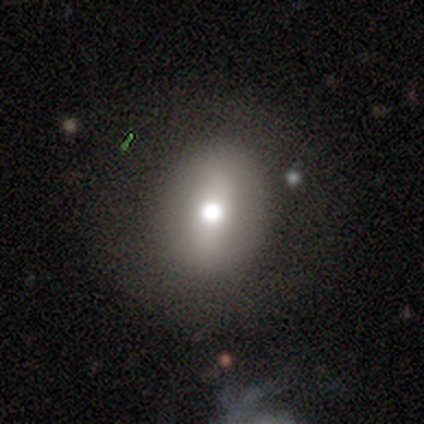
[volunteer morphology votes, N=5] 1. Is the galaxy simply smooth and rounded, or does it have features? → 40% smooth (tied), 40% star or artifact (tied), 20% featured or disk.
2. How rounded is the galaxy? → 50% round (tied), 50% in between (tied), 0% cigar-shaped.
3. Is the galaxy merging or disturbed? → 67% none, 33% minor disturbance, 0% major disturbance, 0% merger.